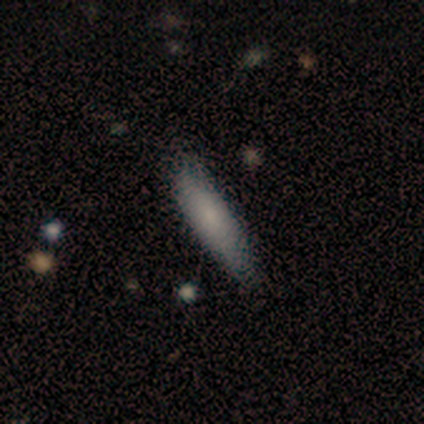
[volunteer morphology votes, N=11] smooth-or-featured: smooth: 64% | star or artifact: 27% | featured or disk: 9%
  how-rounded: cigar-shaped: 86% | in between: 14% | round: 0%
  merging: none: 75% | minor disturbance: 12% | major disturbance: 12% | merger: 0%